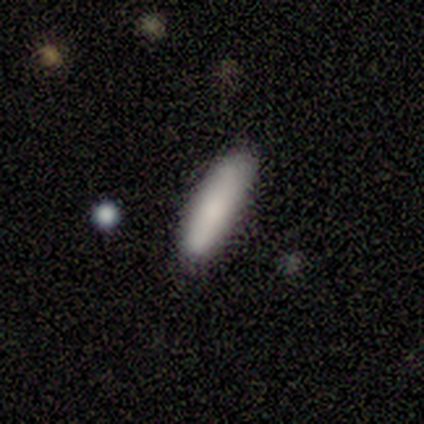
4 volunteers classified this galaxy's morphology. A smooth galaxy with no disk features (75%) that is in between round and cigar-shaped (67%). Merging: none (67%).